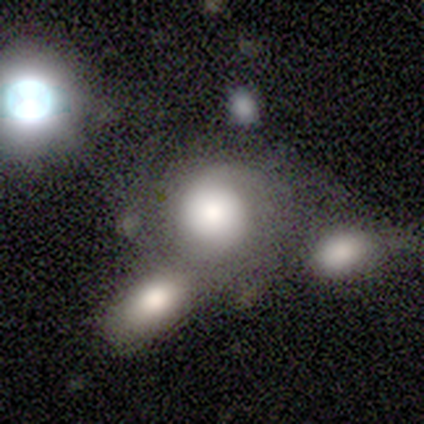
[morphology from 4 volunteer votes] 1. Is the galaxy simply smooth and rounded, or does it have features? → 50% smooth (tied), 50% featured or disk (tied), 0% star or artifact.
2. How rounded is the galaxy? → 100% round, 0% in between, 0% cigar-shaped.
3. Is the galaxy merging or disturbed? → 75% merger, 25% minor disturbance, 0% none, 0% major disturbance.